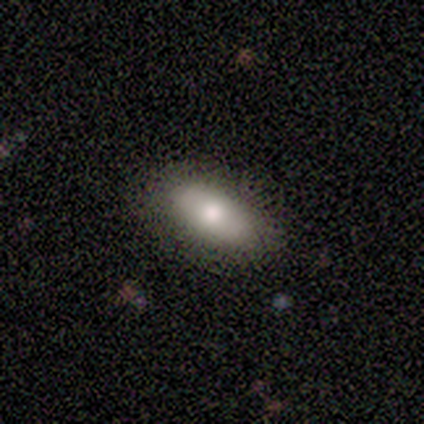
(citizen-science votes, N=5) A smooth galaxy with no disk features (60%) that is in between round and cigar-shaped (67%).

Vote fractions:
- Smooth or featured? smooth: 60% / featured or disk: 40% / star or artifact: 0%
- How rounded? in between: 67% / cigar-shaped: 33% / round: 0%
- Merging? none: 100% / minor disturbance: 0% / major disturbance: 0% / merger: 0%